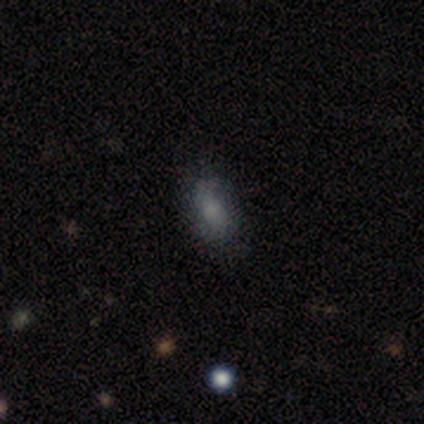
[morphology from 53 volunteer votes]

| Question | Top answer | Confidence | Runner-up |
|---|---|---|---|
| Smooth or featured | smooth | 72% | featured or disk (26%) |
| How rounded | in between | 95% | round (5%) |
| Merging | none | 79% | minor disturbance (19%) |